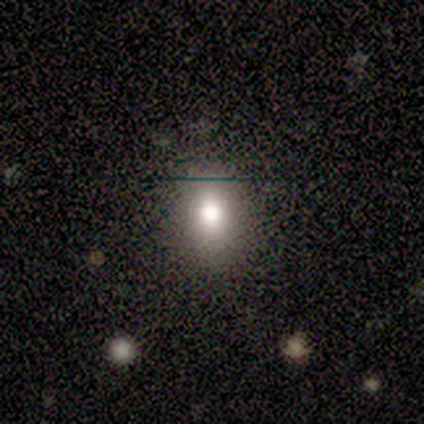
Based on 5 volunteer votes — Smooth or featured: smooth — 100%
How rounded: in between — 80% (round — 20%)
Merging: none — 100%